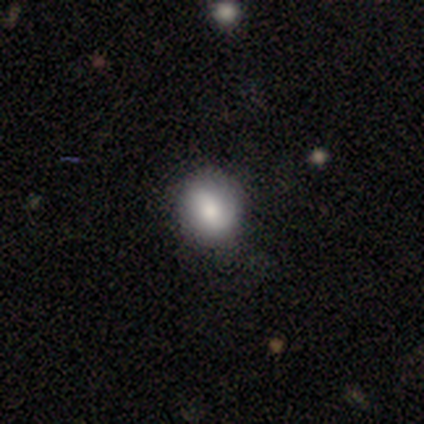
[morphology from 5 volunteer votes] type=smooth (100%); roundness=round (60%); merging=none (80%).